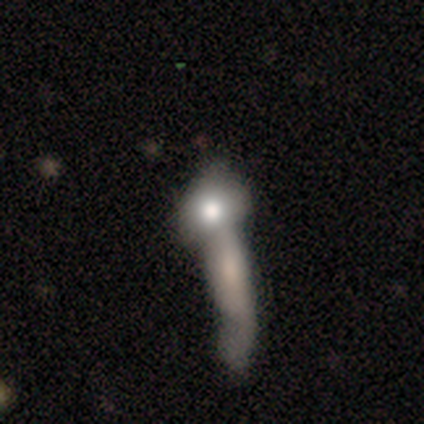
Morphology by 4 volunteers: Smooth or featured: smooth — 100%
How rounded: round — 75% (cigar-shaped — 25%)
Merging: merger — 75% (none — 25%)